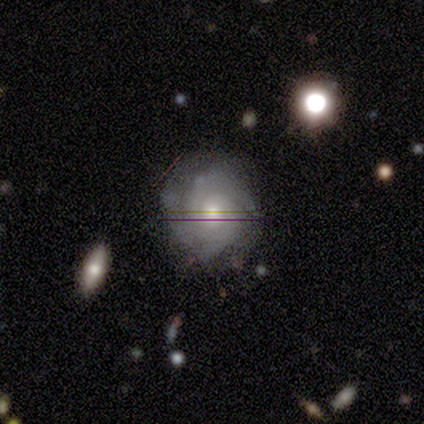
featured or disk 100%, smooth 0%, star or artifact 0%. Down the decision tree: edge-on disk — no (100%); bar — no (75%); spiral arms — yes (100%); spiral arm count — 4 (50%); spiral winding — tight (100%); bulge size — moderate (75%); merging — none (100%).